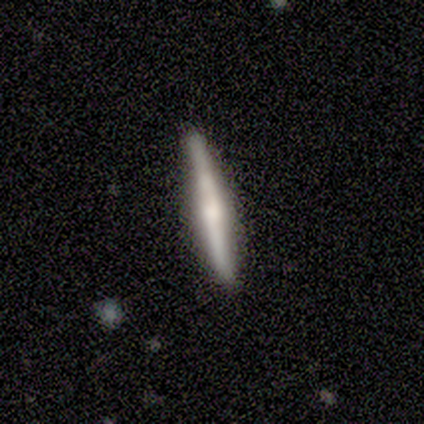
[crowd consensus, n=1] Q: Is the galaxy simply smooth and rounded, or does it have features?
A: featured or disk — 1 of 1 (100%).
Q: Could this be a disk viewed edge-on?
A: yes — 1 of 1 (100%).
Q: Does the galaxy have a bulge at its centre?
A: boxy — 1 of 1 (100%).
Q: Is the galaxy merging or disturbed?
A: none — 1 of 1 (100%).